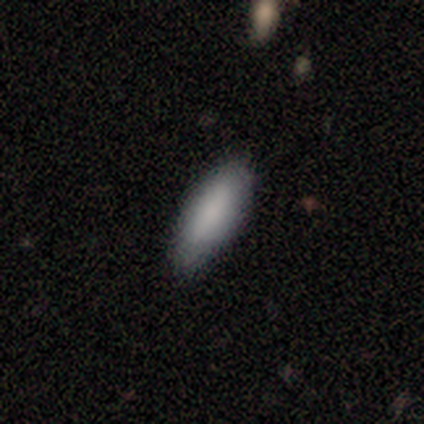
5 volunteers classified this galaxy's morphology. A smooth galaxy with no disk features (100%) that is in between round and cigar-shaped (60%). Merging: none (100%).